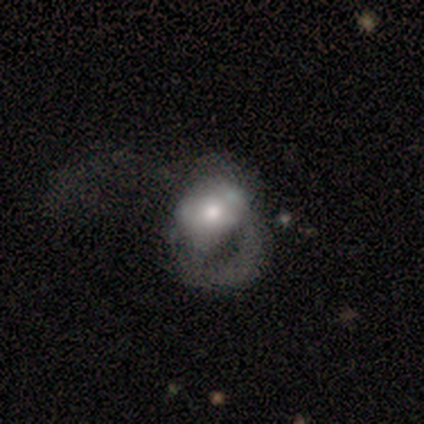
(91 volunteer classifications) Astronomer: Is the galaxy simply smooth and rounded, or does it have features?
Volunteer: smooth — 51% (runner-up: featured or disk, 43%).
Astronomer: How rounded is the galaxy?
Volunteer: round — 57% (runner-up: in between, 43%).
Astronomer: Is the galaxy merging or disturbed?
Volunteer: major disturbance — 73%.